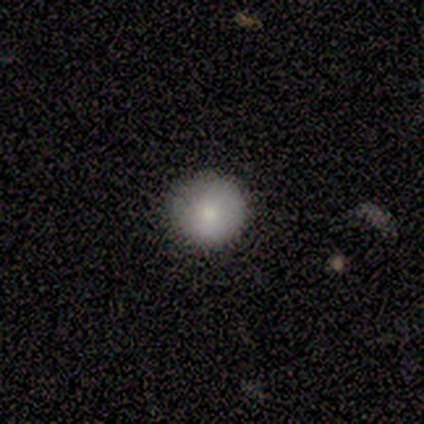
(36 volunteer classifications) Smooth or featured? smooth (72%)
How rounded? round (96%)
Merging? none (77%)